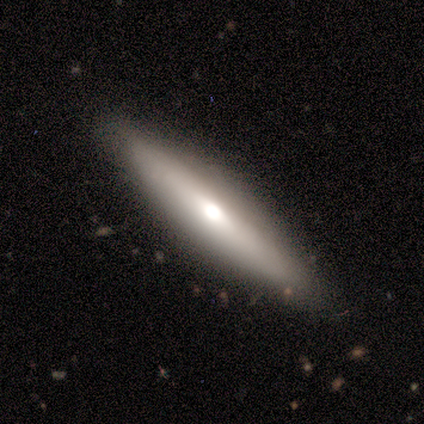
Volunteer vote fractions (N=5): Smooth or featured? featured or disk (60%)
Edge-on disk? yes (67%)
Edge-on bulge? rounded (100%)
Merging? none (80%)